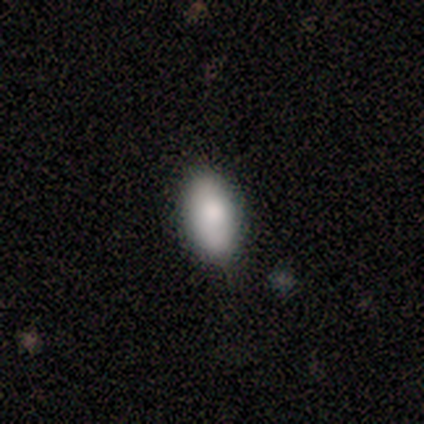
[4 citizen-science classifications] smooth 75%, star or artifact 25%, featured or disk 0%. Down the decision tree: how rounded — in between (100%); merging — none (100%).